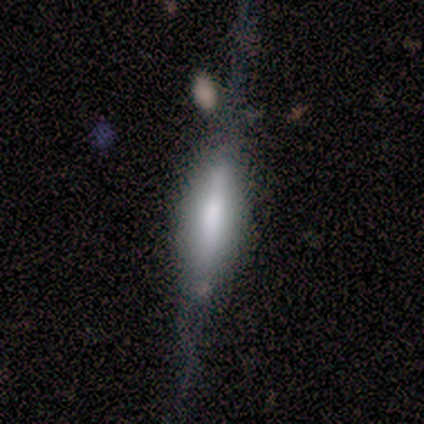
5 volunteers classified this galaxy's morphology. This appears to be a featured or disk galaxy (80%) viewed edge-on (100%) with a rounded central bulge (50%). Merging: none (80%).